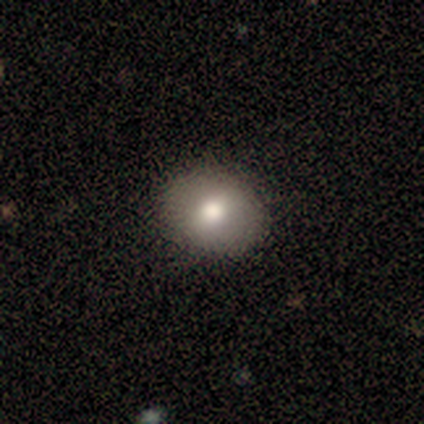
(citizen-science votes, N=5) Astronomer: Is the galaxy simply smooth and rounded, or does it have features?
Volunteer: smooth — 100%.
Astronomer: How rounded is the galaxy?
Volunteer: in between — 80%.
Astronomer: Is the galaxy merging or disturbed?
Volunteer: none — 100%.